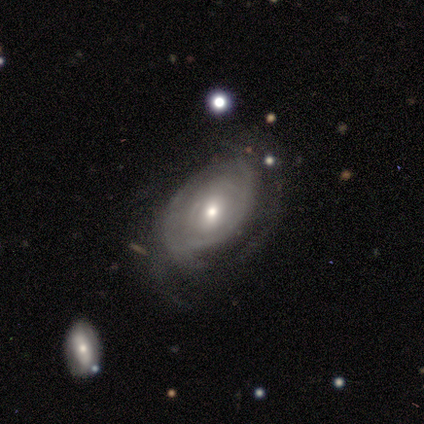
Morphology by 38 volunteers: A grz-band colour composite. It shows a featured or disk galaxy (68%) with no bar (62%), tight (78%) spiral arms (69%) and a moderate central bulge (69%). Merging: none (60%).